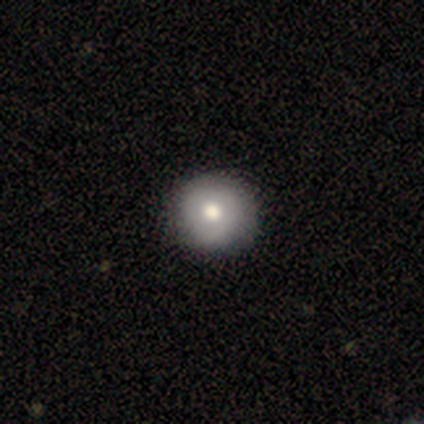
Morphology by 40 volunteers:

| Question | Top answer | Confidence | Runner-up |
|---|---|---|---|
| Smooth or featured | smooth | 55% | featured or disk (38%) |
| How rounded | round | 100% | — |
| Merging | none | 62% | minor disturbance (5%) |